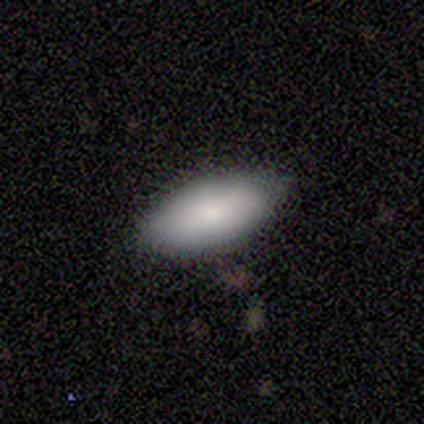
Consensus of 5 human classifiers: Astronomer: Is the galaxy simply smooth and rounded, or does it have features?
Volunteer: smooth — 80%.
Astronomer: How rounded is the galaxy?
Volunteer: in between — 100%.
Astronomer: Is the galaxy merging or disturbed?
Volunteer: none — 100%.